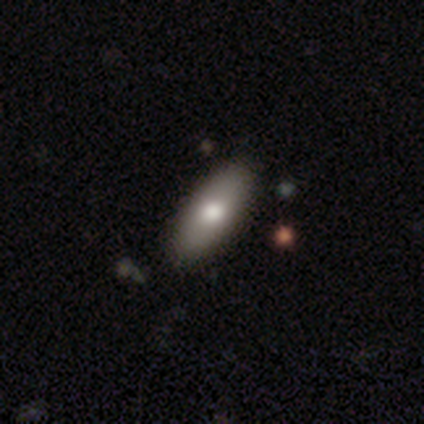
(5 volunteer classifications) Q: Smooth or featured?
A: smooth (100%)
Q: How rounded?
A: in between (60%); runner-up: cigar-shaped (40%)
Q: Merging?
A: none (100%)